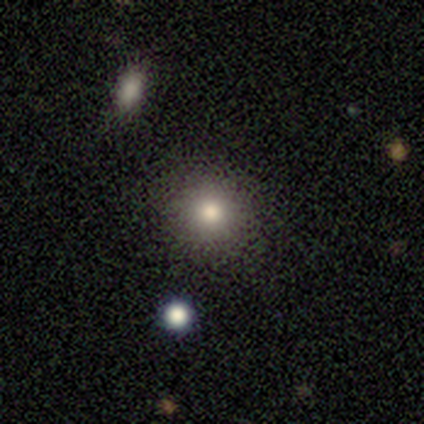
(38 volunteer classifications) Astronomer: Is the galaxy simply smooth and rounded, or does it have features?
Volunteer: smooth — 82%.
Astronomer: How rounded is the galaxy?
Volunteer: round — 94%.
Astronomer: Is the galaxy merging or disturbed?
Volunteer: none — 91%.